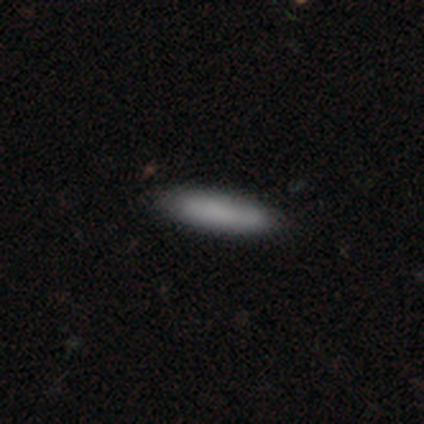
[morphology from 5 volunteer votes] This is clearly a smooth galaxy (100%). How rounded: clearly cigar-shaped (100%). Merging: clearly none (100%).